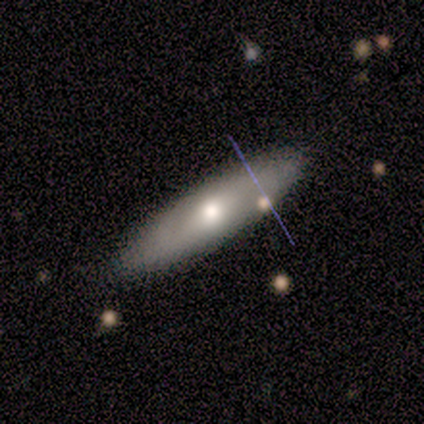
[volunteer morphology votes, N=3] Q: Smooth or featured?
A: featured or disk (67%); runner-up: smooth (33%)
Q: Edge-on disk?
A: no (100%)
Q: Bar?
A: weak (50%); tied with: no (50%)
Q: Spiral arms?
A: no (100%)
Q: Bulge size?
A: moderate (100%)
Q: Merging?
A: none (100%)